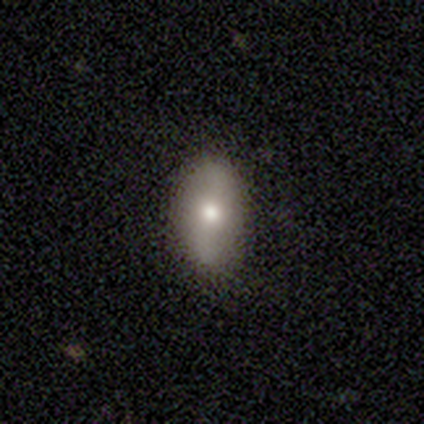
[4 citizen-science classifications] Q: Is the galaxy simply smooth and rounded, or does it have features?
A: smooth — 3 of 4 (75%).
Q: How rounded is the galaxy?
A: in between — 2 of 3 (67%).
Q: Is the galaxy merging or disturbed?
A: none — 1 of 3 (33%, tied with minor disturbance and major disturbance).